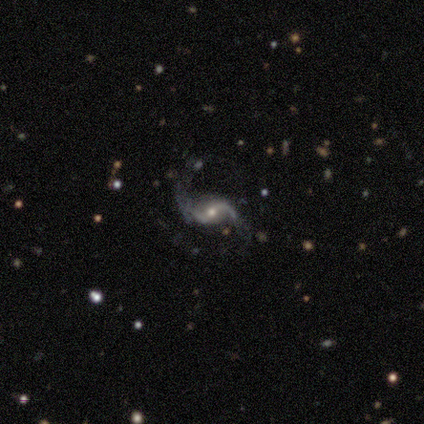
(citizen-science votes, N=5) Smooth or featured? featured or disk (100%)
Edge-on disk? no (100%)
Bar? no (60%)
Spiral arms? yes (100%)
Spiral winding? loose (80%)
Spiral arm count? 2 (80%)
Bulge size? moderate (60%)
Merging? none (60%)